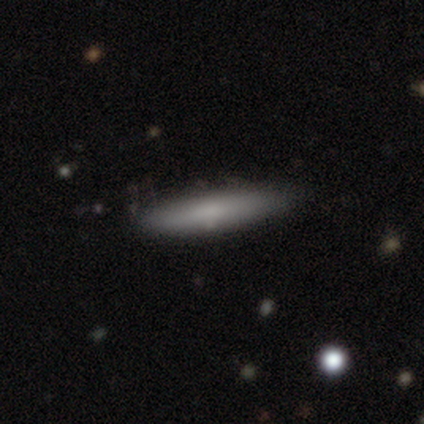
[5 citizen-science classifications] This is clearly a smooth galaxy (80%). How rounded: possibly cigar-shaped (50%). Merging: clearly none (100%).